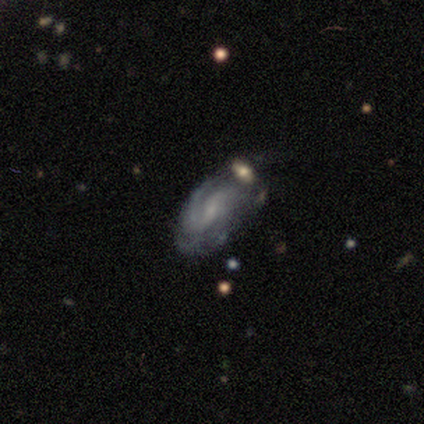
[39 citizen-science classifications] Smooth or featured?
  - featured or disk: 79% *
  - smooth: 18%
  - star or artifact: 3%
Edge-on disk?
  - no: 97% *
  - yes: 3%
Bar?
  - weak: 50% *
  - no: 37%
  - strong: 13%
Spiral arms?
  - yes: 93% *
  - no: 7%
Spiral winding?
  - tight: 50% *
  - medium: 39%
  - loose: 11%
Spiral arm count?
  - 2: 46% *
  - can't tell: 32%
  - 1: 11%
  - 3: 4%
  - 4: 4%
  - more than 4: 4%
Bulge size?
  - small: 60% *
  - none: 23%
  - moderate: 13%
  - dominant: 3%
  - large: 0%
Merging?
  - none: 58% *
  - minor disturbance: 29%
  - merger: 8%
  - major disturbance: 5%